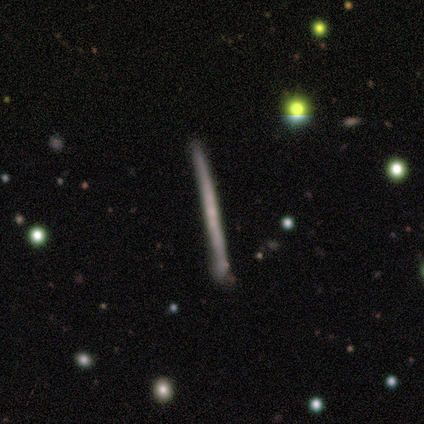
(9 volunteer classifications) This is likely a featured or disk galaxy (67%). It is clearly viewed edge-on (100%). Edge-on bulge: clearly none (100%). Merging: likely none (67%).